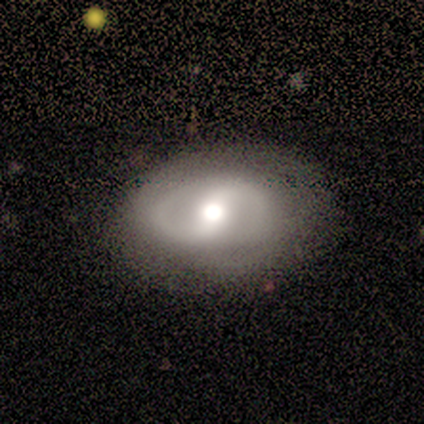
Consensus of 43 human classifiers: Smooth or featured? featured or disk (91%)
Edge-on disk? no (97%)
Bar? weak (39%)
Spiral arms? yes (84%)
Spiral winding? medium (44%)
Spiral arm count? 2 (81%)
Bulge size? moderate (63%)
Merging? none (72%)